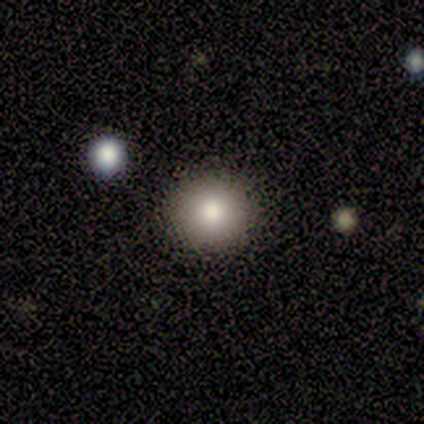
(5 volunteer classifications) Smooth or featured?
  - smooth: 100% *
  - featured or disk: 0%
  - star or artifact: 0%
How rounded?
  - round: 80% *
  - in between: 20%
  - cigar-shaped: 0%
Merging?
  - none: 100% *
  - minor disturbance: 0%
  - major disturbance: 0%
  - merger: 0%